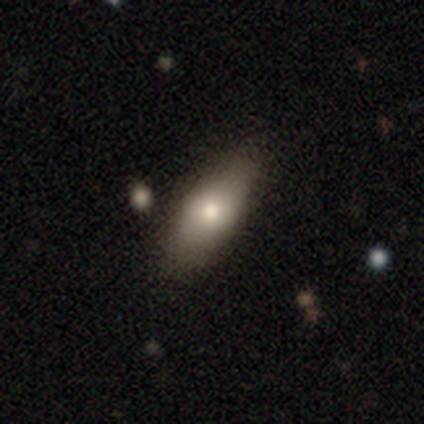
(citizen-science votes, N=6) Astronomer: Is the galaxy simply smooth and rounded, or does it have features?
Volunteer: smooth — 67%.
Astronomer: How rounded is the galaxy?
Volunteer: in between — 50%.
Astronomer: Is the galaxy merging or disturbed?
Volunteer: none — 67%.